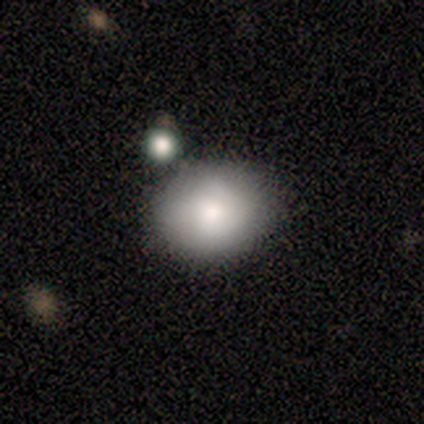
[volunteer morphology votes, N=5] This is clearly a smooth galaxy (80%). How rounded: likely round (75%). Merging: marginally none (40%, tied with minor disturbance).